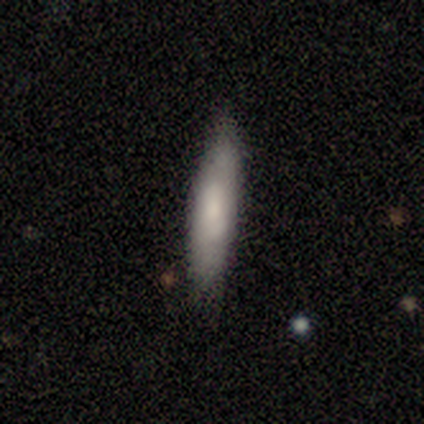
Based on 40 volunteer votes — Smooth or featured? smooth (78%)
How rounded? cigar-shaped (81%)
Merging? none (87%)